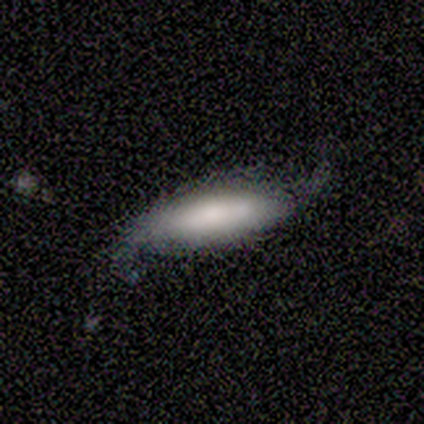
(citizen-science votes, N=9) Smooth or featured?
  - featured or disk: 56% *
  - smooth: 44%
  - star or artifact: 0%
Edge-on disk?
  - no: 80% *
  - yes: 20%
Bar?
  - strong: 50% *
  - weak: 25%
  - no: 25%
Spiral arms?
  - yes: 100% *
  - no: 0%
Spiral winding?
  - medium: 50% * (tied)
  - loose: 50% * (tied)
  - tight: 0%
Spiral arm count?
  - 2: 100% *
  - 1: 0%
  - 3: 0%
  - 4: 0%
  - more than 4: 0%
  - can't tell: 0%
Bulge size?
  - dominant: 50% *
  - large: 25%
  - small: 25%
  - moderate: 0%
  - none: 0%
Merging?
  - none: 67% *
  - minor disturbance: 33%
  - major disturbance: 0%
  - merger: 0%